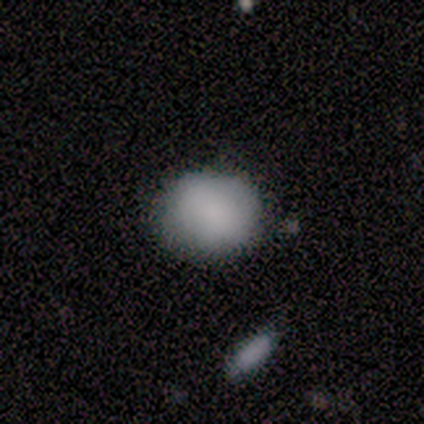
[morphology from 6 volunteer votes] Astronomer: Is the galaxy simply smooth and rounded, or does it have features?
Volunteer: smooth — 100%.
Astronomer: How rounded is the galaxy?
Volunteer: round — 100%.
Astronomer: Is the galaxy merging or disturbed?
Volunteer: none — 83%.